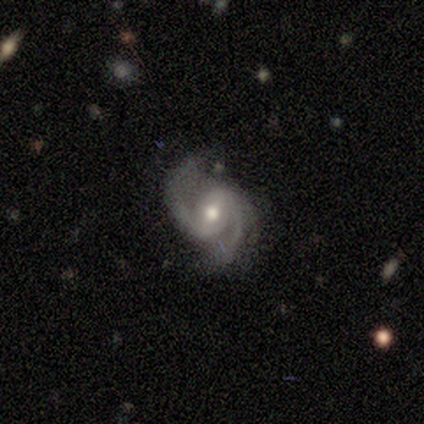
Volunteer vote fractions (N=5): smooth_or_featured: featured or disk (p=1.00)
disk_edge_on: no (p=1.00)
bar: weak (p=0.80) [alt: no p=0.20]
has_spiral_arms: yes (p=1.00)
spiral_winding: medium (p=0.80) [alt: tight p=0.20]
spiral_arm_count: 2 (p=1.00)
bulge_size: moderate (p=0.80) [alt: small p=0.20]
merging: none (p=0.80) [alt: minor disturbance p=0.20]